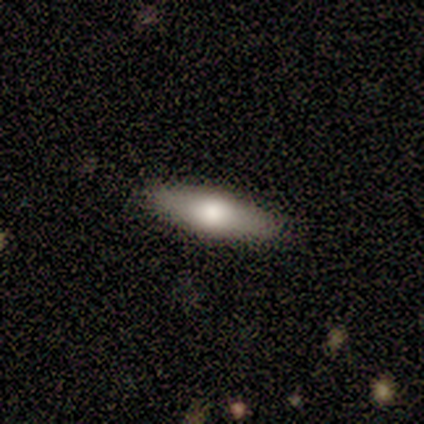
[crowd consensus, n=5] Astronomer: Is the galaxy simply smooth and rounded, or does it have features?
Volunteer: featured or disk — 80%.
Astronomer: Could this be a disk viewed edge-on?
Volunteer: yes — 100%.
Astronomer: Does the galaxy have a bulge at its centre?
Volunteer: rounded — 100%.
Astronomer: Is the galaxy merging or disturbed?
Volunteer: none — 80%.